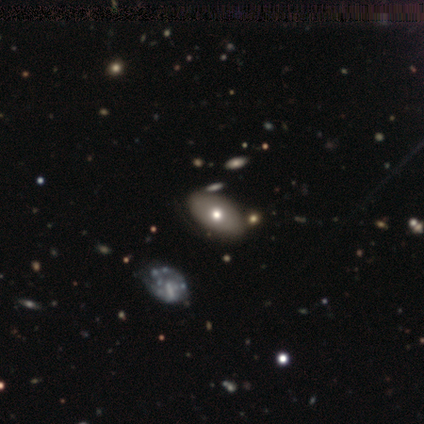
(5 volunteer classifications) Smooth or featured? smooth (80%)
How rounded? in between (100%)
Merging? none (75%)